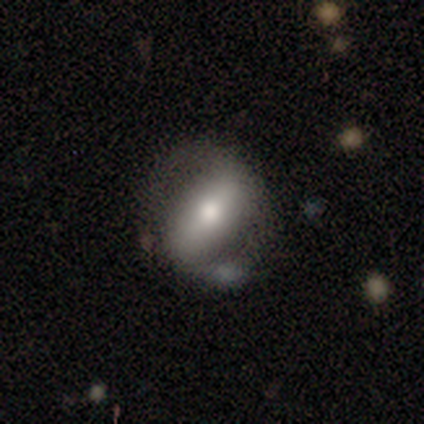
Morphology: type=featured or disk (60%); edge-on=no (100%); bar=strong (67%); spiral arms=yes (67%); winding=tight (100%); arm count=2 (100%); bulge=large (33%, tied with moderate and small); merging=none (60%).